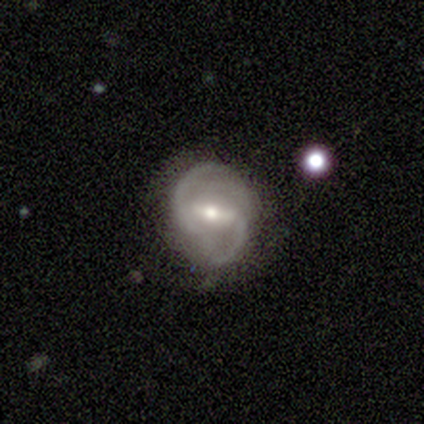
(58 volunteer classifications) Q: Smooth or featured?
A: featured or disk (90%); runner-up: star or artifact (7%)
Q: Edge-on disk?
A: no (96%); runner-up: yes (4%)
Q: Bar?
A: strong (64%); runner-up: weak (34%)
Q: Spiral arms?
A: yes (92%); runner-up: no (8%)
Q: Spiral winding?
A: medium (61%); runner-up: loose (39%)
Q: Spiral arm count?
A: 2 (89%); runner-up: 3 (9%)
Q: Bulge size?
A: moderate (70%); runner-up: small (28%)
Q: Merging?
A: none (65%); runner-up: minor disturbance (31%)